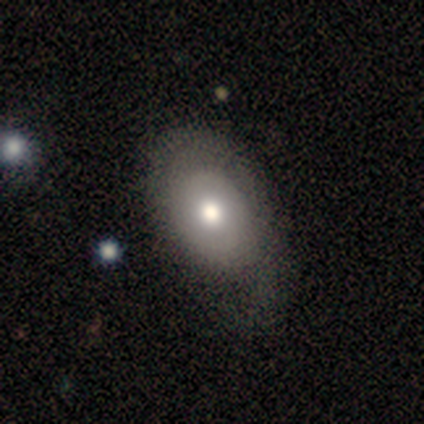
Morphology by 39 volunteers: This appears to be a smooth galaxy with no disk features (64%) that is in between round and cigar-shaped (92%). Merging: none (28%).